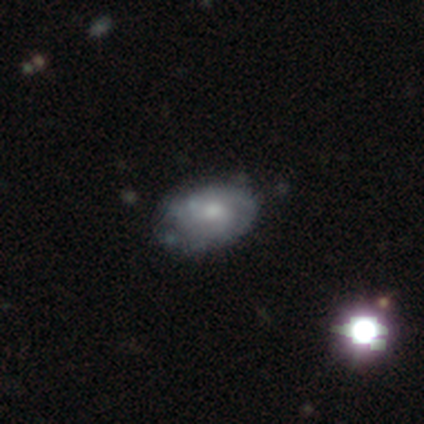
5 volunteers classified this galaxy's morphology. Volunteers were most divided on "bar" (3-way tie): strong: 33%, weak: 33%, no: 33%; "spiral arm count" (2-way tie): 2: 50%, can't tell: 50%, 1: 0%, 3: 0%, 4: 0%, more than 4: 0%; "merging" (2-way tie): none: 50%, minor disturbance: 50%, major disturbance: 0%, merger: 0%. More confident: edge-on disk — no (100%); spiral winding — tight (100%); spiral arms — yes (67%); bulge size — moderate (67%); smooth or featured — featured or disk (60%).